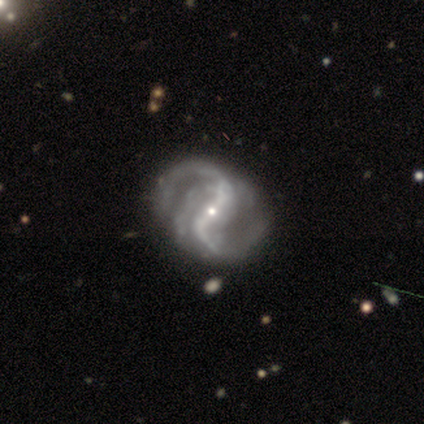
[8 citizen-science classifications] This is clearly a featured or disk galaxy (100%). It is clearly not viewed edge-on (100%). Bar: likely strong (62%). Spiral arm pattern: clearly yes (100%). Spiral arm count: likely 2 (75%). Spiral winding: clearly loose (88%). Central bulge: clearly small (88%). Merging: marginally minor disturbance (25%, tied with major disturbance).